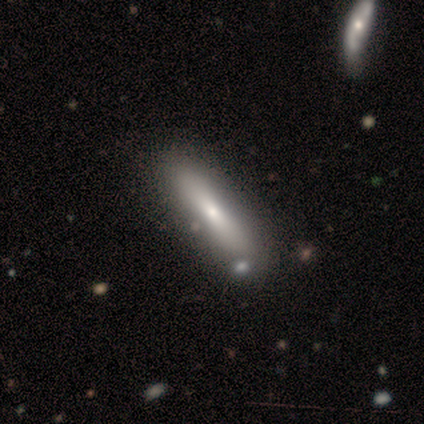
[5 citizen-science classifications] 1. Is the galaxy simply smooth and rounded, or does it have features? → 60% featured or disk, 40% smooth, 0% star or artifact.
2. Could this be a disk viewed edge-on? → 67% no, 33% yes.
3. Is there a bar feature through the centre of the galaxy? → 50% strong (tied), 50% no (tied), 0% weak.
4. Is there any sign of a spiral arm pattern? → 100% no, 0% yes.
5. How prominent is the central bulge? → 100% small, 0% dominant, 0% large, 0% moderate, 0% none.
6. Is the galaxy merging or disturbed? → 80% none, 20% merger, 0% minor disturbance, 0% major disturbance.